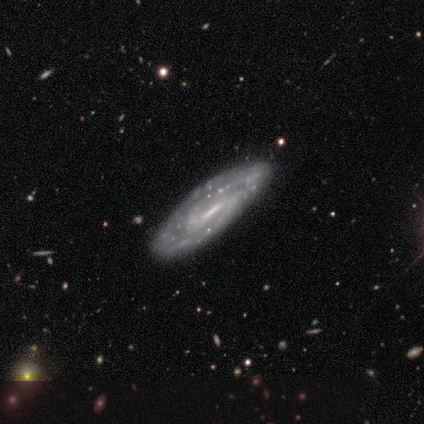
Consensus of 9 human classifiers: Smooth or featured? 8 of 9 (89%) said featured or disk. Edge-on disk? 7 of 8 (88%) said no. Bar? 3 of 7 (43%, tied with weak) said strong. Spiral arms? 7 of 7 (100%) said yes. Spiral winding? 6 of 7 (86%) said tight. Spiral arm count? 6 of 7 (86%) said 2. Bulge size? 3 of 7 (43%) said small. Merging? 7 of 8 (88%) said none.